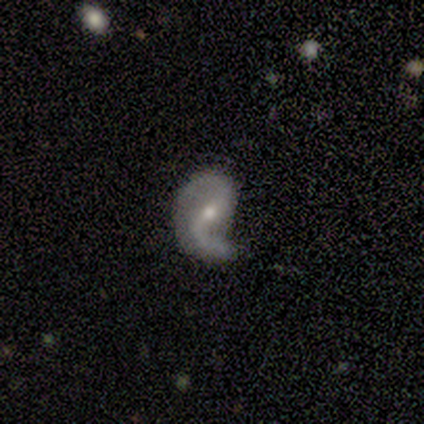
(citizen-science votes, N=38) A featured or disk galaxy (89%) with a strong bar (38%), 2 (80%) loose (50%) spiral arms (88%) and a small central bulge (56%). Merging: none (60%).